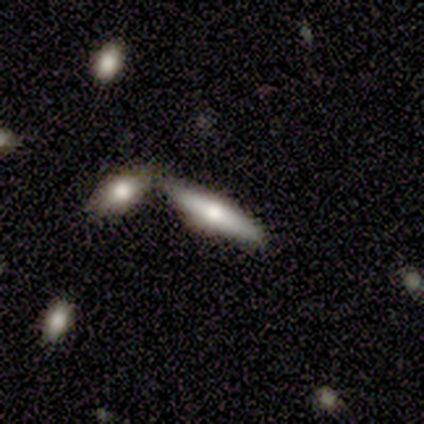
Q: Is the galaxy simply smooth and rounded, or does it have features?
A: featured or disk — 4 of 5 (80%).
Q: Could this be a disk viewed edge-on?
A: yes — 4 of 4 (100%).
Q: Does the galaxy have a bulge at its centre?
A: rounded — 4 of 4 (100%).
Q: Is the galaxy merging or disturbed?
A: merger — 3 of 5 (60%).